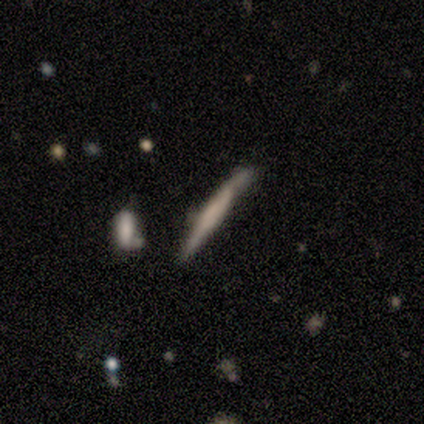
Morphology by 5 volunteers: featured or disk 60%, smooth 20%, star or artifact 20%. Down the decision tree: edge-on disk — yes (100%); edge-on bulge — none (67%); merging — minor disturbance (75%).